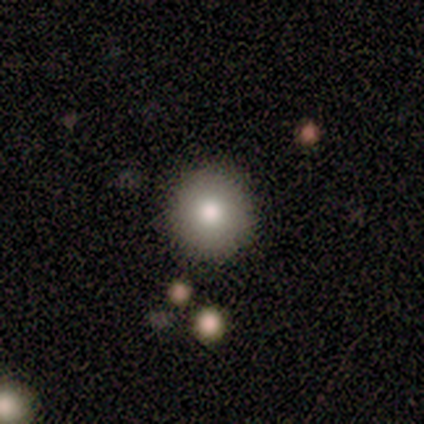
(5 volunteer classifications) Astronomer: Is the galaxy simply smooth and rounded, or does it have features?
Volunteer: smooth — 100%.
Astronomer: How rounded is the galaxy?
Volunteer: round — 80%.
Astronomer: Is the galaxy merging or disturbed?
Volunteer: none — 80%.